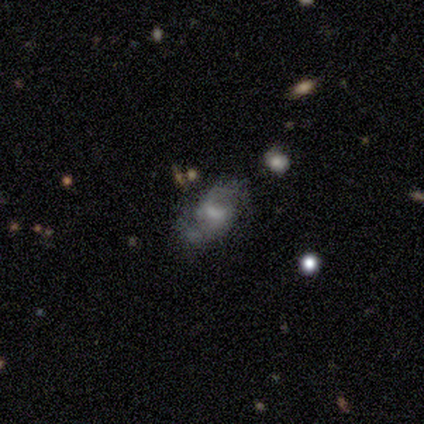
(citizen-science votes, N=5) Smooth or featured: smooth — 60% (featured or disk — 40%)
How rounded: in between — 67% (cigar-shaped — 33%)
Merging: minor disturbance — 60% (none — 20%)